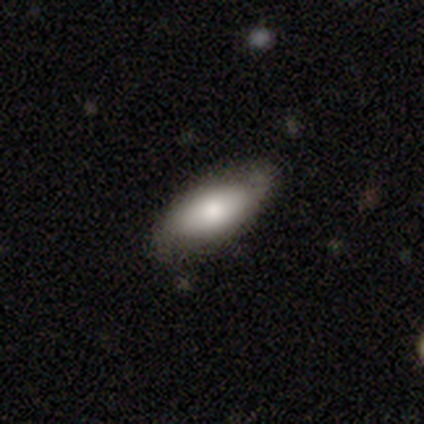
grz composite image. It shows a smooth galaxy with no disk features (75%) that is in between round and cigar-shaped (100%). Merging: none (50%).